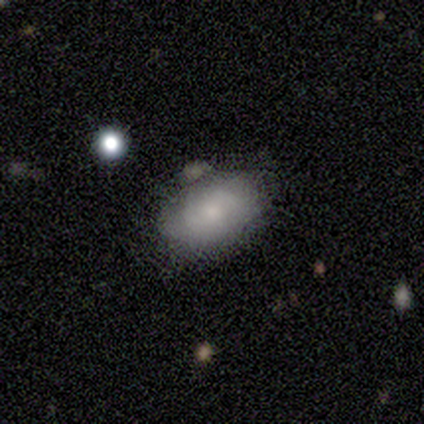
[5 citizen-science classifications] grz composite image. It shows a smooth galaxy with no disk features (60%) that is in between round and cigar-shaped (100%). Merging: none (60%).